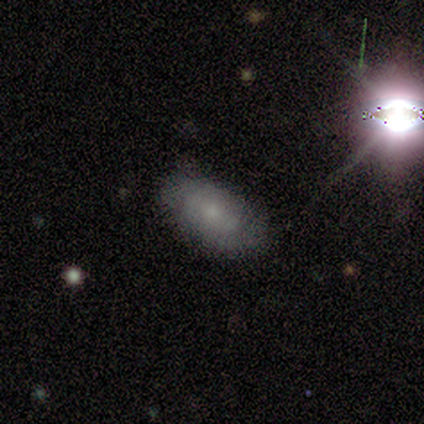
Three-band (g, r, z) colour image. It shows a smooth galaxy with no disk features (80%) that is in between round and cigar-shaped (75%). Merging: none (80%).